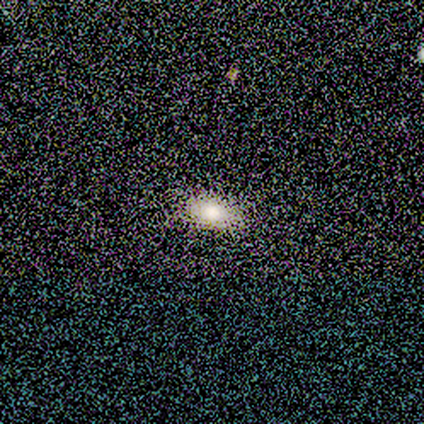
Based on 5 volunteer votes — smooth 60%, featured or disk 20%, star or artifact 20%. Down the decision tree: how rounded — in between (100%); merging — none (100%).